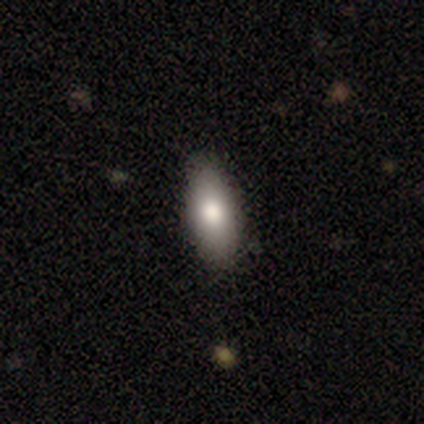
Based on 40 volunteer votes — A smooth galaxy with no disk features (80%) that is in between round and cigar-shaped (91%).

Vote fractions:
- Smooth or featured? smooth: 80% / featured or disk: 15% / star or artifact: 5%
- How rounded? in between: 91% / cigar-shaped: 9% / round: 0%
- Merging? none: 92% / minor disturbance: 5% / major disturbance: 3% / merger: 0%